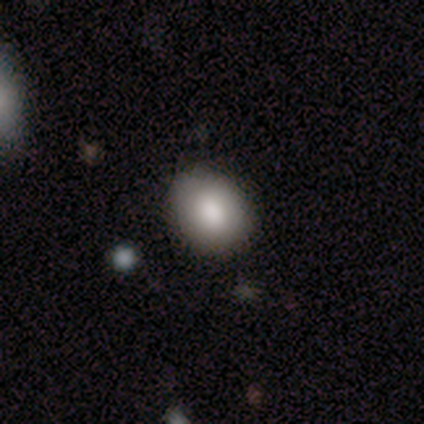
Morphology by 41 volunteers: smooth-or-featured: smooth: 90% | featured or disk: 5% | star or artifact: 5%
  how-rounded: in between: 57% | round: 43% | cigar-shaped: 0%
  merging: none: 69% | minor disturbance: 3% | major disturbance: 3% | merger: 0%